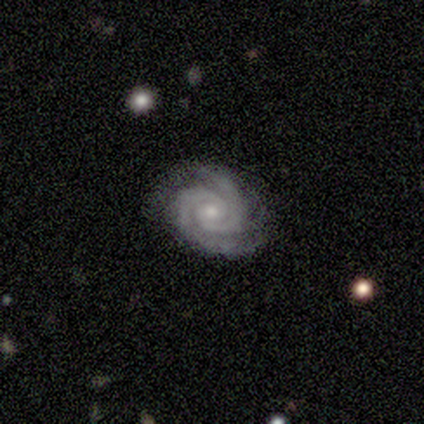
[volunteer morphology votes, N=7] Overall: featured or disk (100%). Edge-on disk: no (100%). Bar: no (86%). Spiral arms: yes (100%). Spiral arm count: 2 (100%). Spiral winding: tight (86%). Bulge size: small (71%). Merging: none (86%).